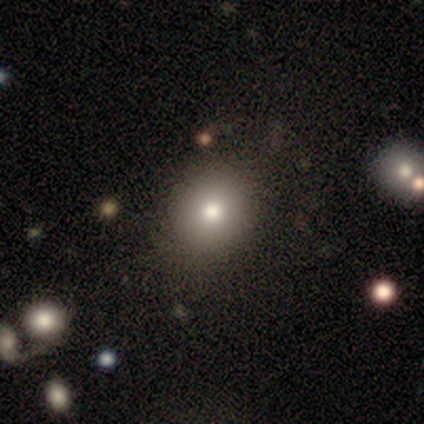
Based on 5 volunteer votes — Smooth or featured: smooth — 40% (tied with featured or disk — 40%)
How rounded: round — 100%
Merging: none — 100%